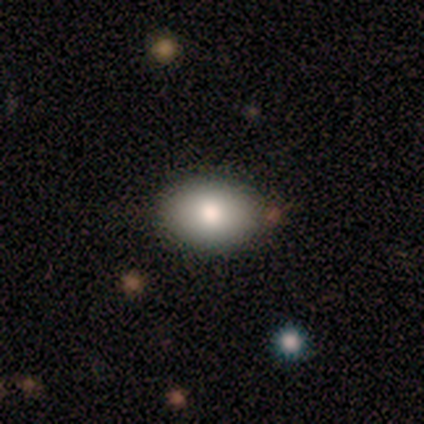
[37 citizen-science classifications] This is likely a smooth galaxy (76%). How rounded: likely in between (71%). Merging: clearly none (85%).